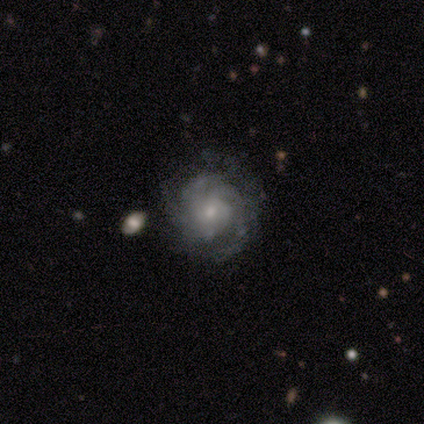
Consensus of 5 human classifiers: Smooth or featured? 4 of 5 (80%) said featured or disk. Edge-on disk? 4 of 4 (100%) said no. Bar? 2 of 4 (50%, tied with no) said weak. Spiral arms? 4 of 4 (100%) said yes. Spiral winding? 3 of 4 (75%) said tight. Spiral arm count? 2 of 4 (50%, tied with can't tell) said 3. Bulge size? 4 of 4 (100%) said small. Merging? 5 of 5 (100%) said none.